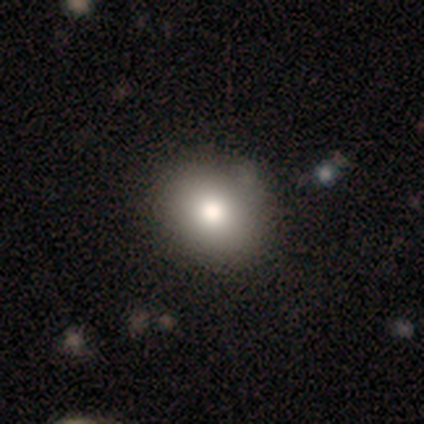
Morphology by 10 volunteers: smooth 80%, star or artifact 20%, featured or disk 0%. Down the decision tree: how rounded — round (88%); merging — none (100%).